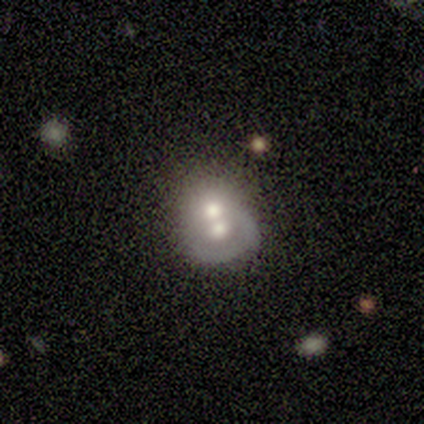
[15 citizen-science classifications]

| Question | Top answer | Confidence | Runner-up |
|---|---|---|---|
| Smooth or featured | smooth | 53% | featured or disk (47%) |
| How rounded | round | 88% | in between (12%) |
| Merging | merger | 80% | none (7%) |